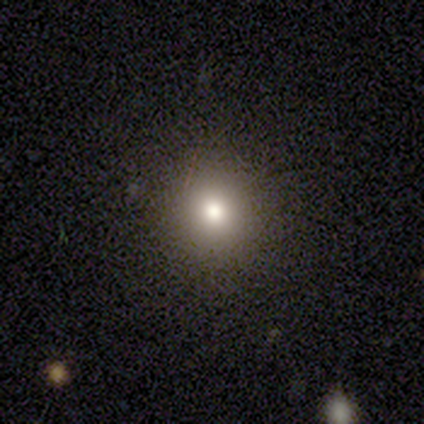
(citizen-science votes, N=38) Smooth or featured? 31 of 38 (82%) said smooth. How rounded? 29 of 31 (94%) said round. Merging? 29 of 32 (91%) said none.